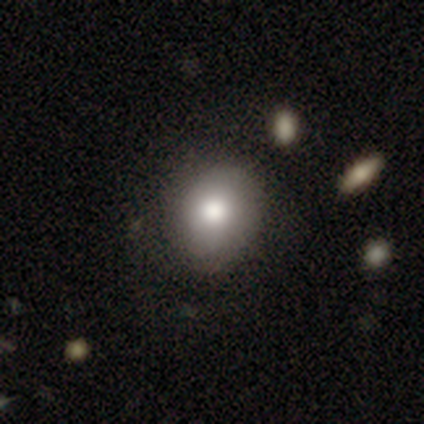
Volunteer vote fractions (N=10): Q: Smooth or featured?
A: smooth (80%); runner-up: featured or disk (20%)
Q: How rounded?
A: round (100%)
Q: Merging?
A: none (90%); runner-up: minor disturbance (10%)